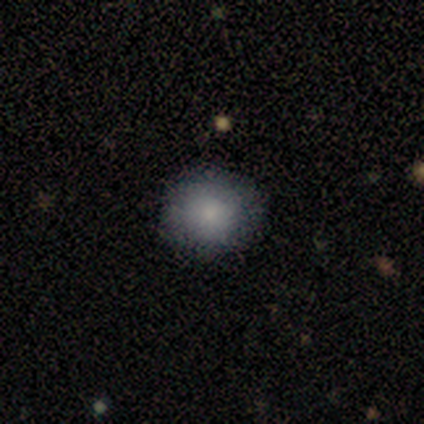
Smooth or featured? 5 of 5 (100%) said smooth. How rounded? 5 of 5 (100%) said round. Merging? 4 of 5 (80%) said none.